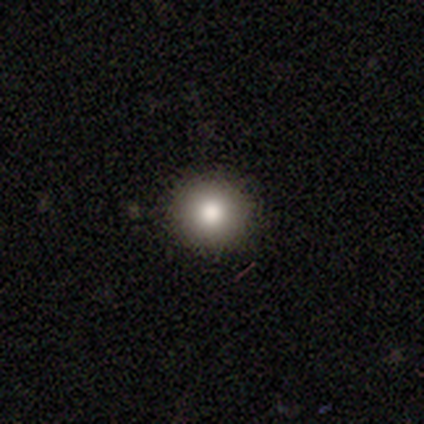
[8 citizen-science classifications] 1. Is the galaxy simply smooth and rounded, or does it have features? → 62% smooth, 25% star or artifact, 12% featured or disk.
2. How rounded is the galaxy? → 80% round, 20% in between, 0% cigar-shaped.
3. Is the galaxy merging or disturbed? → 100% none, 0% minor disturbance, 0% major disturbance, 0% merger.